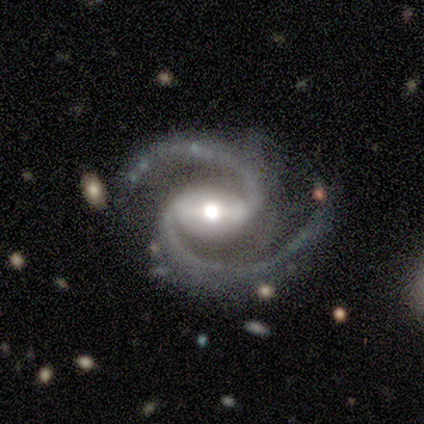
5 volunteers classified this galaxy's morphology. Q: Smooth or featured?
A: featured or disk (100%)
Q: Edge-on disk?
A: no (100%)
Q: Bar?
A: strong (100%)
Q: Spiral arms?
A: yes (100%)
Q: Spiral winding?
A: loose (80%); runner-up: medium (20%)
Q: Spiral arm count?
A: 2 (100%)
Q: Bulge size?
A: moderate (40%); tied with: small (40%)
Q: Merging?
A: none (80%); runner-up: minor disturbance (20%)